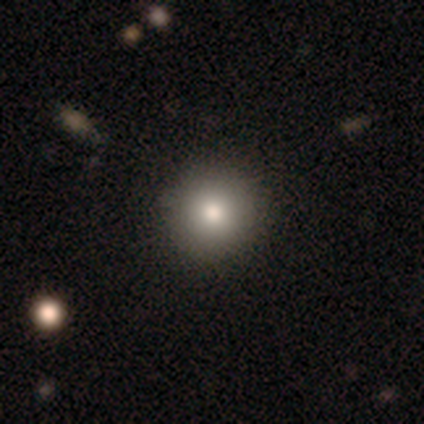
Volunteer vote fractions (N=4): smooth 50% (tied), featured or disk 50% (tied), star or artifact 0%. Down the decision tree: how rounded — round (50%, tied with in between); merging — none (50%).